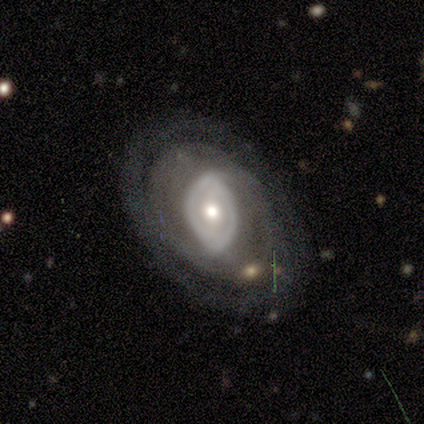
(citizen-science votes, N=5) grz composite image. It shows a featured or disk galaxy (80%) with a weak bar (50%, tied with no), no spiral arms (75%) and a moderate central bulge (75%). Merging: none (100%).